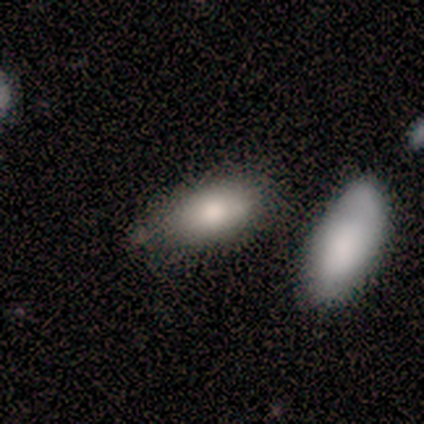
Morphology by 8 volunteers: Q: Smooth or featured?
A: smooth (88%); runner-up: featured or disk (12%)
Q: How rounded?
A: in between (100%)
Q: Merging?
A: none (75%); runner-up: minor disturbance (12%)